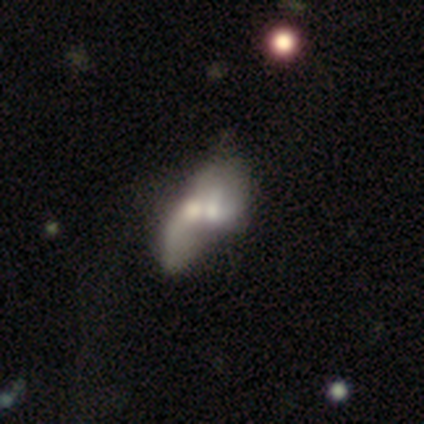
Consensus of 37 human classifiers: Overall: featured or disk (51%; smooth 46%). Edge-on disk: no (95%). Bar: no (94%). Spiral arms: no (78%). Bulge size: moderate (61%; small 28%). Merging: merger (78%).